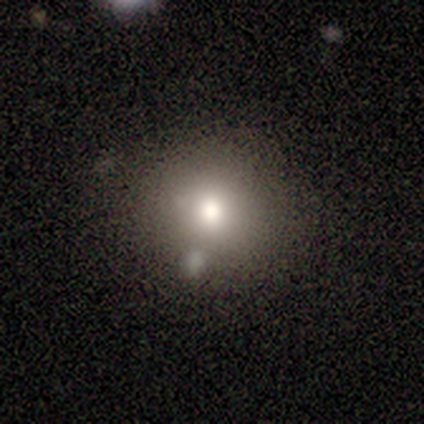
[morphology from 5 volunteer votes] Smooth or featured?
  - smooth: 60% *
  - star or artifact: 40%
  - featured or disk: 0%
How rounded?
  - round: 100% *
  - in between: 0%
  - cigar-shaped: 0%
Merging?
  - none: 33% * (tied)
  - major disturbance: 33% * (tied)
  - merger: 33% * (tied)
  - minor disturbance: 0%